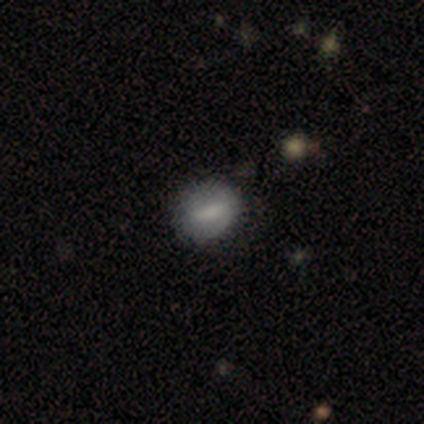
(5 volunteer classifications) smooth 60%, featured or disk 40%, star or artifact 0%. Down the decision tree: how rounded — round (100%); merging — none (80%).